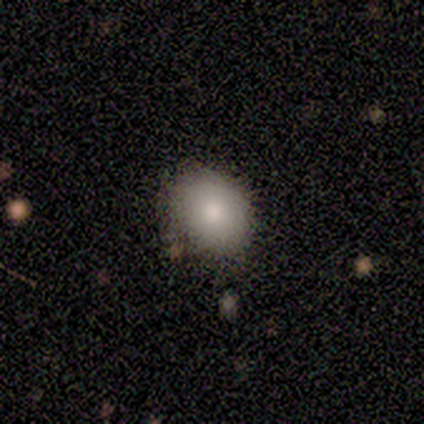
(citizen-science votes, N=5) This appears to be a smooth galaxy with no disk features (80%) that is in between round and cigar-shaped (75%). Merging: none (100%).